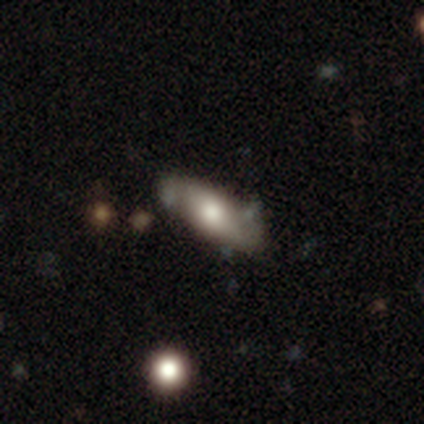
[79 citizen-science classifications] Overall: smooth (53%; featured or disk 42%). How rounded: in between (71%). Merging: none (32%; minor disturbance 12%).